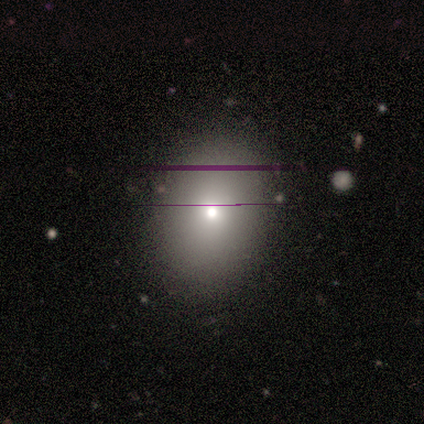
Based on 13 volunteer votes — Volunteers were most divided on "how rounded": in between: 70%, round: 30%, cigar-shaped: 0%. More confident: smooth or featured — smooth (77%); merging — none (75%).